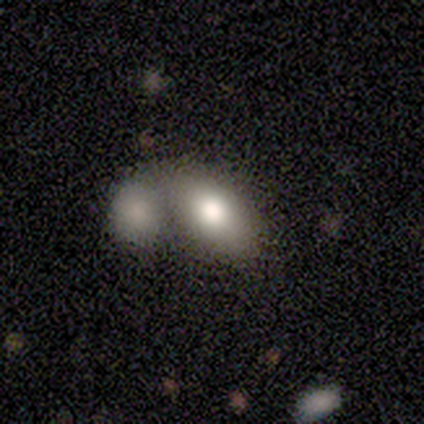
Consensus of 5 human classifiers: smooth-or-featured: smooth: 80% | featured or disk: 20% | star or artifact: 0%
  how-rounded: in between: 100% | round: 0% | cigar-shaped: 0%
  merging: merger: 60% | none: 40% | minor disturbance: 0% | major disturbance: 0%